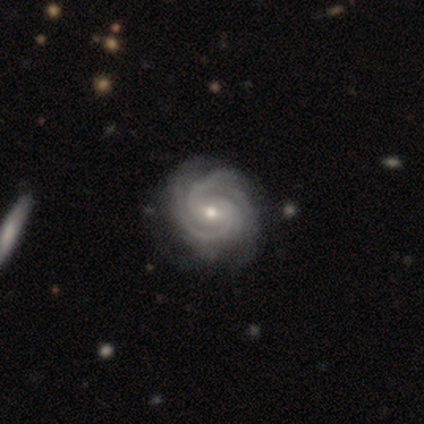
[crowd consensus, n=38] featured or disk 92%, star or artifact 5%, smooth 3%. Down the decision tree: edge-on disk — no (100%); bar — weak (66%); spiral arms — yes (97%); spiral arm count — 2 (68%); spiral winding — tight (68%); bulge size — small (49%); merging — none (53%).